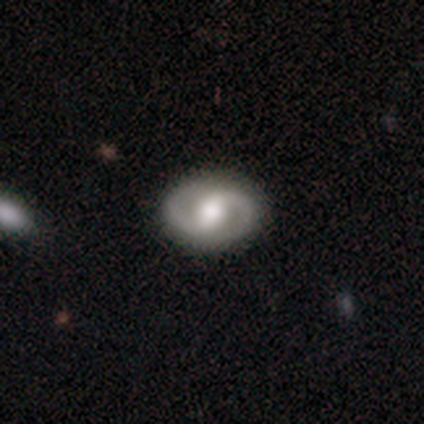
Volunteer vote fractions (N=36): smooth-or-featured: featured or disk: 89% | smooth: 6% | star or artifact: 6%
  disk-edge-on: no: 97% | yes: 3%
    bar: weak: 55% | strong: 39% | no: 6%
    has-spiral-arms: yes: 94% | no: 6%
      spiral-winding: medium: 48% | tight: 34% | loose: 17%
      spiral-arm-count: 2: 100% | 1: 0% | 3: 0% | 4: 0% | more than 4: 0% | can't tell: 0%
    bulge-size: large: 42% (tied) | moderate: 42% (tied) | small: 10% | dominant: 3% | none: 3%
  merging: none: 94% | minor disturbance: 3% | major disturbance: 3% | merger: 0%